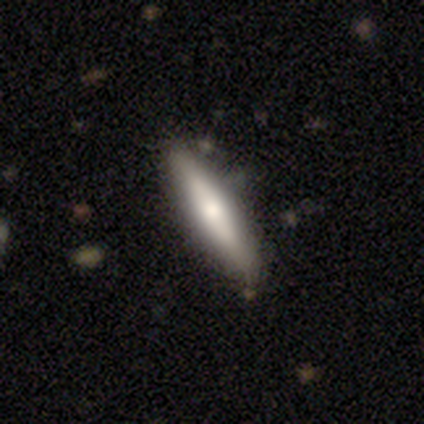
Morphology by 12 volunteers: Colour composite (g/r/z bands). It shows a smooth galaxy with no disk features (58%) that is cigar-shaped (71%). Merging: none (73%).